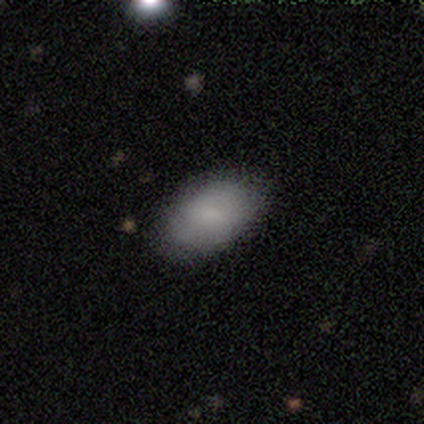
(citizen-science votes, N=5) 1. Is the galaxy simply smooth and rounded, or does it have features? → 100% smooth, 0% featured or disk, 0% star or artifact.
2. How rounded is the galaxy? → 60% in between, 20% round, 20% cigar-shaped.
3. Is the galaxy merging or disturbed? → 60% minor disturbance, 40% none, 0% major disturbance, 0% merger.